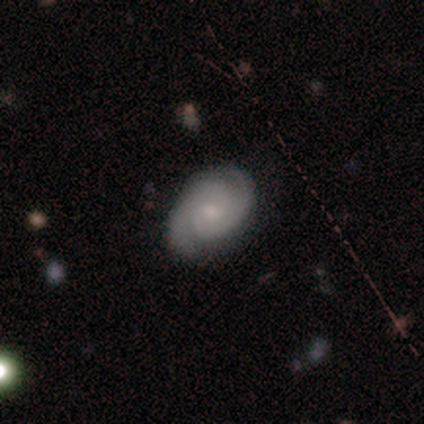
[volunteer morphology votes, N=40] Smooth or featured? 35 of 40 (88%) said featured or disk. Edge-on disk? 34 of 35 (97%) said no. Bar? 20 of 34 (59%) said no. Spiral arms? 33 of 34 (97%) said yes. Spiral winding? 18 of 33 (55%) said tight. Spiral arm count? 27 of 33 (82%) said 2. Bulge size? 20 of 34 (59%) said small. Merging? 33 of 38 (87%) said none.